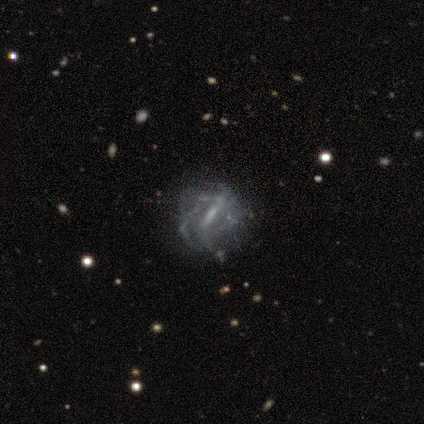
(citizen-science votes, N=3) featured or disk 67%, smooth 33%, star or artifact 0%. Down the decision tree: edge-on disk — no (100%); bar — strong (50%, tied with no); spiral arms — yes (50%, tied with no); spiral arm count — 2 (100%); spiral winding — tight (100%); bulge size — small (50%, tied with none); merging — none (100%).